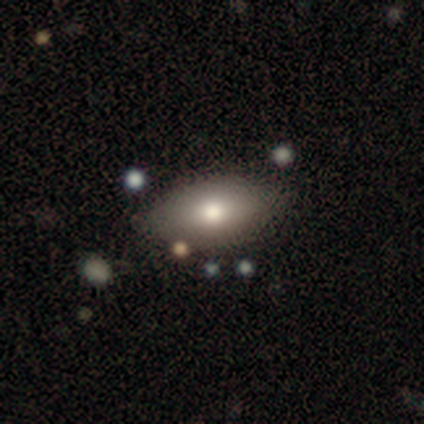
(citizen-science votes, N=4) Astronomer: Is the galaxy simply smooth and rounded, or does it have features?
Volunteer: smooth — 50%, tied with featured or disk at 50%.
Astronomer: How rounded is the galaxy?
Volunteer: in between — 100%.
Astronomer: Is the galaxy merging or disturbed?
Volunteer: none — 100%.